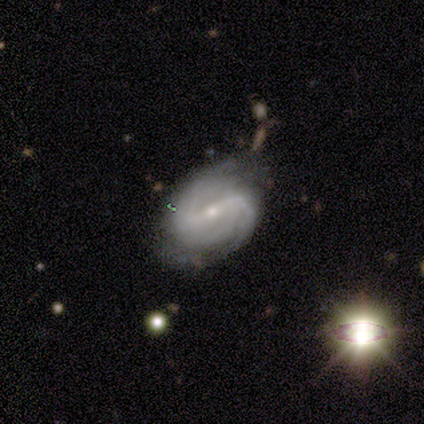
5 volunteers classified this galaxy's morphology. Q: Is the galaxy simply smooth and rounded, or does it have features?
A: featured or disk — 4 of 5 (80%).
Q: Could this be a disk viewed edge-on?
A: no — 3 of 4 (75%).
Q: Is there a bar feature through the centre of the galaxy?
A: weak — 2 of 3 (67%).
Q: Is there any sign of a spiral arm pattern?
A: yes — 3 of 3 (100%).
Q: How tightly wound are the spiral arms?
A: tight — 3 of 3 (100%).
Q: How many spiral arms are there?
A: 2 — 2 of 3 (67%).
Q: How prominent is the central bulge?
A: moderate — 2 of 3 (67%).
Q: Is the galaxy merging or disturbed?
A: none — 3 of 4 (75%).